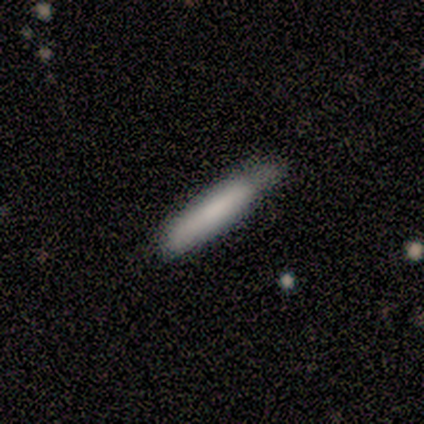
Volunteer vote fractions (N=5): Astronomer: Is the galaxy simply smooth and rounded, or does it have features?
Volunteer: smooth — 80%.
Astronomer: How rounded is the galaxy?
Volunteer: cigar-shaped — 100%.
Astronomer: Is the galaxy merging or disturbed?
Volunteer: none — 80%.